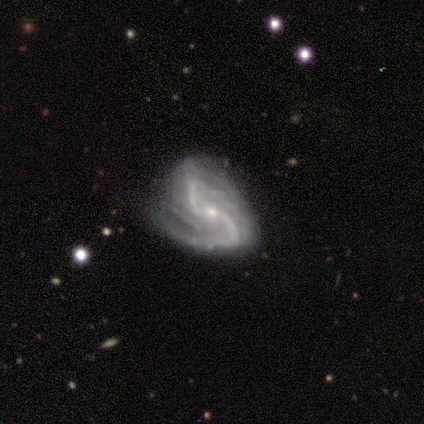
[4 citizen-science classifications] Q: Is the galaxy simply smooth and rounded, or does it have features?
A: featured or disk — 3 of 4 (75%).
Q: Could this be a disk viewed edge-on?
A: no — 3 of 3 (100%).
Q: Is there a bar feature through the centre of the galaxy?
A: strong — 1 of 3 (33%, tied with weak and no).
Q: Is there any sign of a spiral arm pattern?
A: yes — 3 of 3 (100%).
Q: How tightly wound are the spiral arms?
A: tight — 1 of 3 (33%, tied with medium and loose).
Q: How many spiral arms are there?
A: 2 — 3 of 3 (100%).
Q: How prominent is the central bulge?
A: small — 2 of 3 (67%).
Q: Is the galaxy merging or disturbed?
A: none — 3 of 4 (75%).